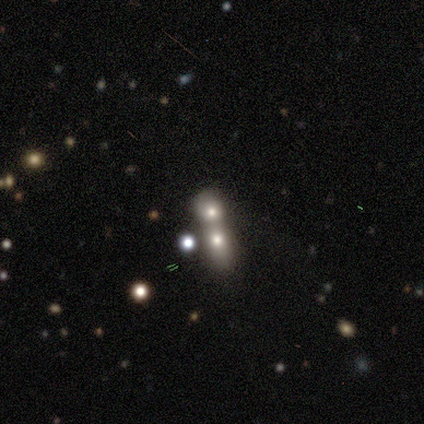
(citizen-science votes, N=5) Smooth or featured: featured or disk — 60% (smooth — 20%)
Edge-on disk: no — 100%
Bar: no — 100%
Spiral arms: no — 100%
Bulge size: moderate — 67% (small — 33%)
Merging: merger — 75% (none — 25%)